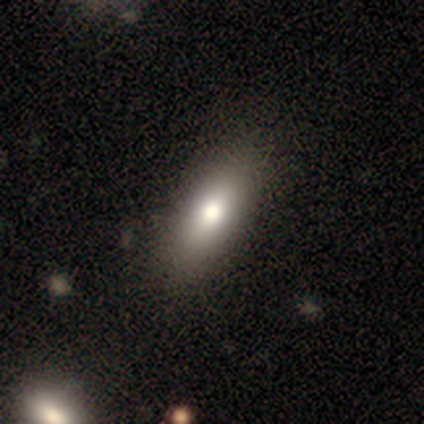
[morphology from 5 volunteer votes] Q: Smooth or featured?
A: smooth (80%); runner-up: featured or disk (20%)
Q: How rounded?
A: in between (100%)
Q: Merging?
A: none (60%); runner-up: minor disturbance (40%)